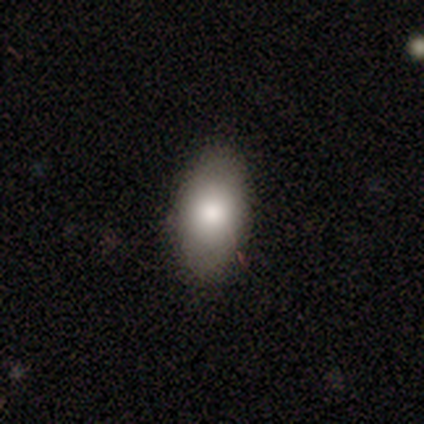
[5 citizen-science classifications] Overall: smooth (80%). How rounded: in between (100%). Merging: none (100%).